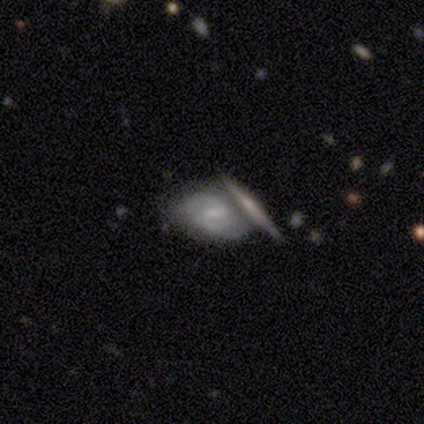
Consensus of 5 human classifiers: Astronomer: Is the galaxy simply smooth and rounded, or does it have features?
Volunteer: featured or disk — 80%.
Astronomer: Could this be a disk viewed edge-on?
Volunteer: no — 75%.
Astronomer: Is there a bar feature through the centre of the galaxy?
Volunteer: weak — 67%.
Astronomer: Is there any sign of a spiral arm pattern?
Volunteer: yes — 100%.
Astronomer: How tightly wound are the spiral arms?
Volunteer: tight — 33%, tied with medium and loose at 33%.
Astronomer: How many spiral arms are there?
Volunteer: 2 — 67%.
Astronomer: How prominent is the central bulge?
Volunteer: small — 67%.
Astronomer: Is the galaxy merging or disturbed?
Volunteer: none — 40%, tied with minor disturbance at 40%.